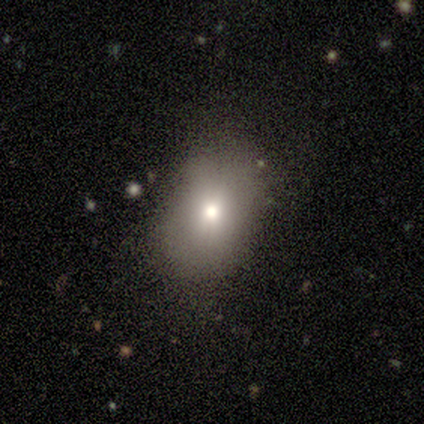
Smooth or featured? 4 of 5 (80%) said smooth. How rounded? 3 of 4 (75%) said in between. Merging? 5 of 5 (100%) said none.